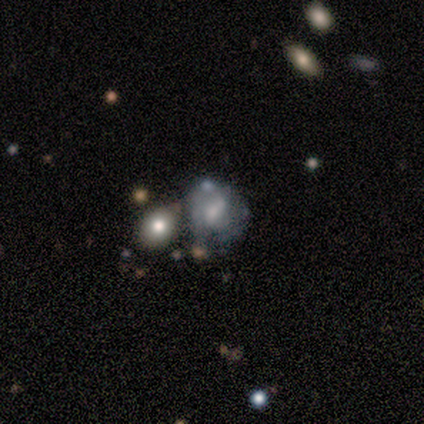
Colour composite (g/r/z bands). It shows a featured or disk galaxy (100%) with a weak bar (50%, tied with no), 1 (100%) medium (100%) spiral arms (50%, tied with no) and a moderate central bulge (100%). Merging: none (100%).